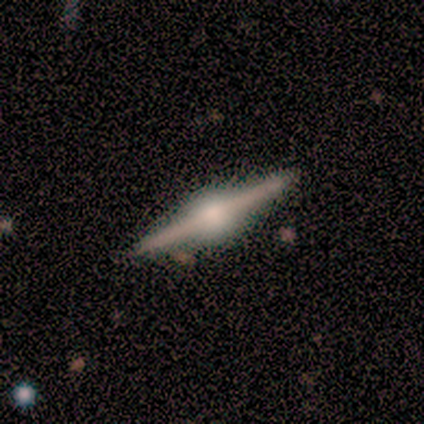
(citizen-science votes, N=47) Smooth or featured? featured or disk (87%)
Edge-on disk? yes (98%)
Edge-on bulge? rounded (92%)
Merging? none (86%)